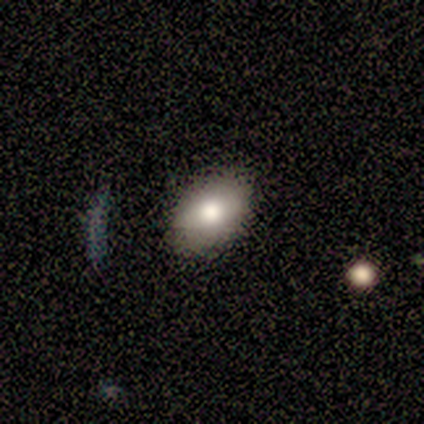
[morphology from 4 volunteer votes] Volunteers were most divided on "smooth or featured": smooth: 75%, star or artifact: 25%, featured or disk: 0%. More confident: how rounded — in between (100%); merging — none (100%).